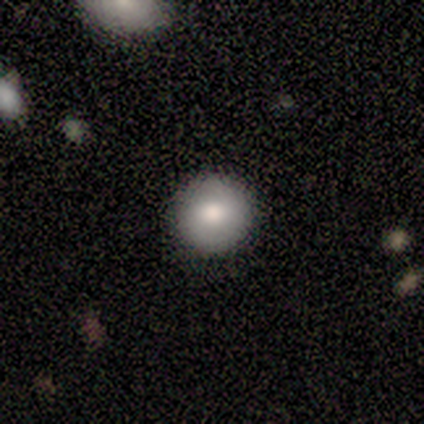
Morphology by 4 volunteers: smooth-or-featured: smooth: 100% | featured or disk: 0% | star or artifact: 0%
  how-rounded: round: 100% | in between: 0% | cigar-shaped: 0%
  merging: none: 100% | minor disturbance: 0% | major disturbance: 0% | merger: 0%